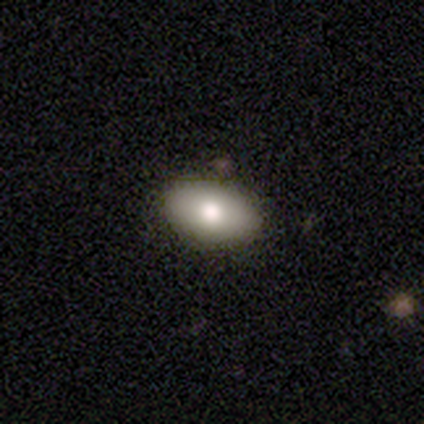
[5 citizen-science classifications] Volunteers were most divided on "how rounded": in between: 75%, round: 25%, cigar-shaped: 0%. More confident: merging — none (100%); smooth or featured — smooth (80%).